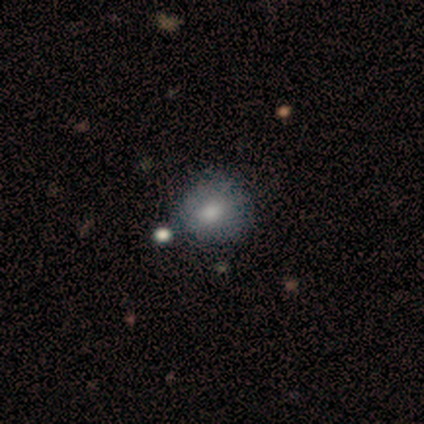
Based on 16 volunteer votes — Q: Smooth or featured?
A: smooth (75%); runner-up: featured or disk (19%)
Q: How rounded?
A: round (67%); runner-up: in between (33%)
Q: Merging?
A: none (80%); runner-up: minor disturbance (7%)